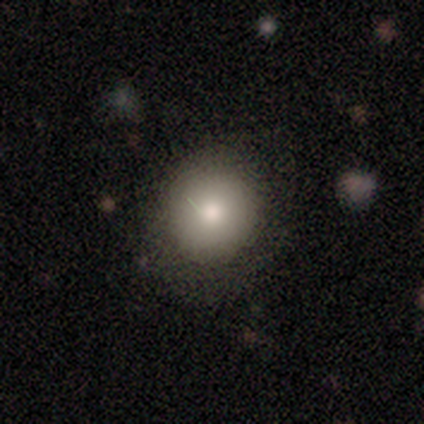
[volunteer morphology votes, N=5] smooth 100%, featured or disk 0%, star or artifact 0%. Down the decision tree: how rounded — round (80%); merging — none (80%).